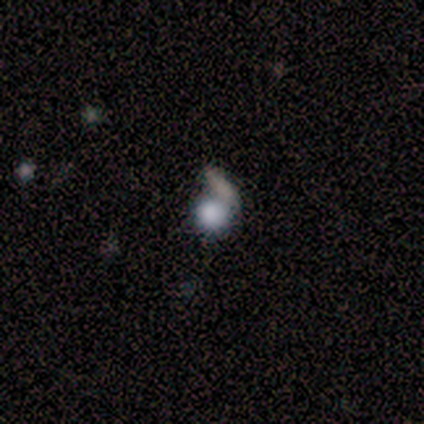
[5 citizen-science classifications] smooth_or_featured: smooth (p=0.80) [alt: star or artifact p=0.20]
how_rounded: round (p=1.00)
merging: merger (p=0.75) [alt: minor disturbance p=0.25]